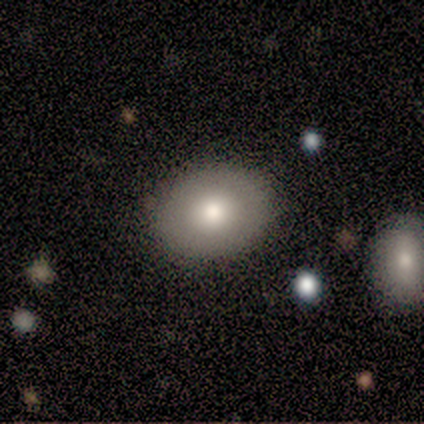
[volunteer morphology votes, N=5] Smooth or featured?
  - smooth: 60% *
  - featured or disk: 20%
  - star or artifact: 20%
How rounded?
  - in between: 67% *
  - round: 33%
  - cigar-shaped: 0%
Merging?
  - none: 100% *
  - minor disturbance: 0%
  - major disturbance: 0%
  - merger: 0%